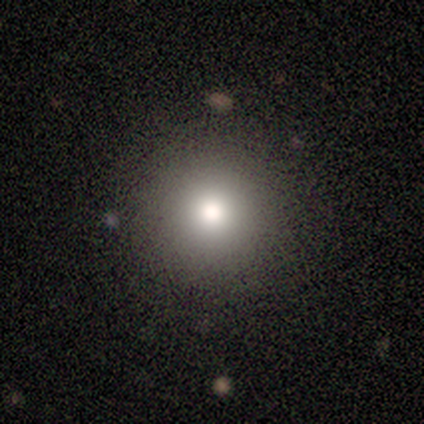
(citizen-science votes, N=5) smooth-or-featured: smooth: 80% | star or artifact: 20% | featured or disk: 0%
  how-rounded: round: 100% | in between: 0% | cigar-shaped: 0%
  merging: none: 100% | minor disturbance: 0% | major disturbance: 0% | merger: 0%